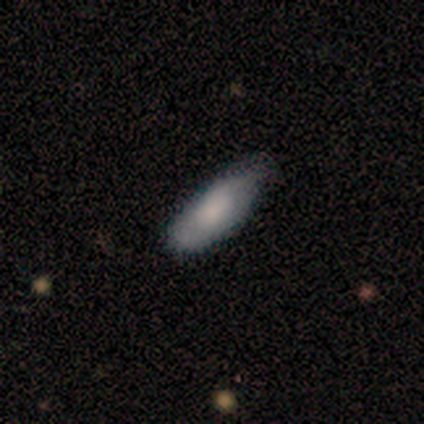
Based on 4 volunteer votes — smooth 75%, featured or disk 25%, star or artifact 0%. Down the decision tree: how rounded — in between (67%); merging — none (50%, tied with minor disturbance).